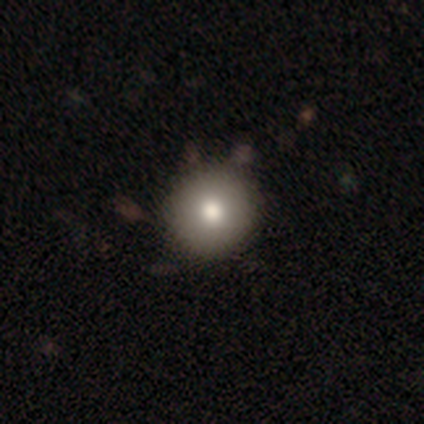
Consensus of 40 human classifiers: A smooth galaxy with no disk features (78%) that is round (100%).

Vote fractions:
- Smooth or featured? smooth: 78% / featured or disk: 12% / star or artifact: 10%
- How rounded? round: 100% / in between: 0% / cigar-shaped: 0%
- Merging? none: 64% / merger: 6% / minor disturbance: 0% / major disturbance: 0%